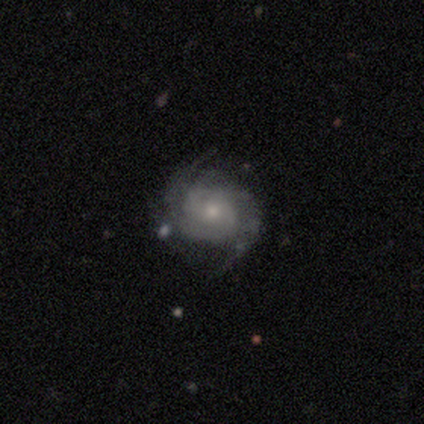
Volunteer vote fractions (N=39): Smooth or featured? featured or disk (95%)
Edge-on disk? no (100%)
Bar? no (65%)
Spiral arms? yes (97%)
Spiral winding? tight (50%)
Spiral arm count? 2 (64%)
Bulge size? small (57%)
Merging? none (49%)